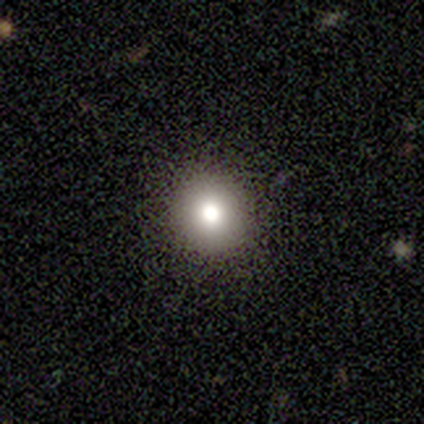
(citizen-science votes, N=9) Smooth or featured: smooth — 89% (star or artifact — 11%)
How rounded: round — 75% (in between — 25%)
Merging: none — 88% (minor disturbance — 12%)